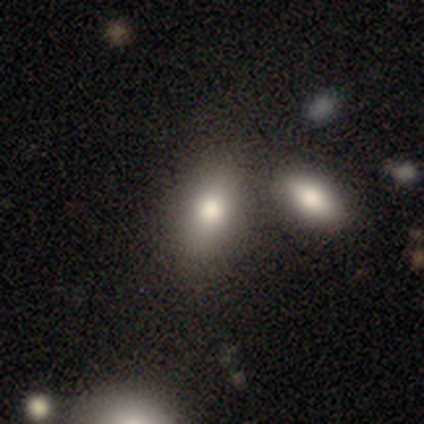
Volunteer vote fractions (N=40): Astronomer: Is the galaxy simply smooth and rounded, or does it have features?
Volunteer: smooth — 85%.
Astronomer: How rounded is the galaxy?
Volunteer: in between — 91%.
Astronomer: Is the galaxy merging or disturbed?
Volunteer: none — 47% (runner-up: merger, 31%).